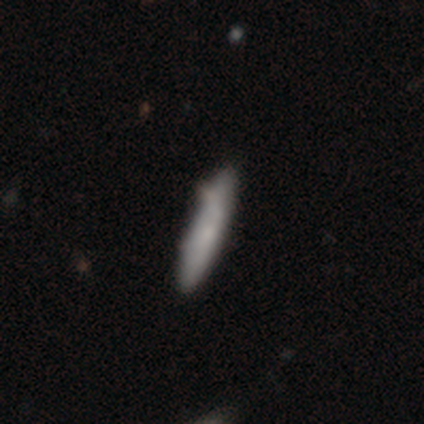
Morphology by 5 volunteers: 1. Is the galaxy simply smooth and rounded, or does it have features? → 40% smooth (tied), 40% featured or disk (tied), 20% star or artifact.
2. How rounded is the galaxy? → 100% cigar-shaped, 0% round, 0% in between.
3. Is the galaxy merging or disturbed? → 75% none, 25% minor disturbance, 0% major disturbance, 0% merger.